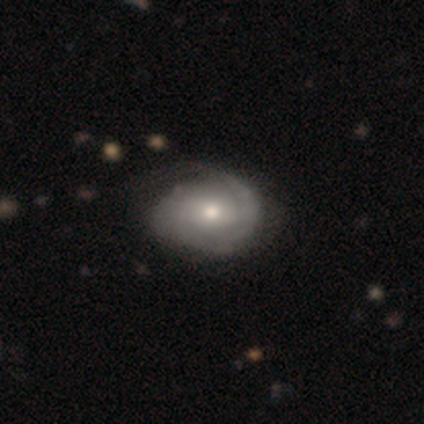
A featured or disk galaxy (66%) with no bar (52%), 2 (50%) tight (41%, tied with medium) spiral arms (88%) and a moderate central bulge (52%). Merging: none (47%).